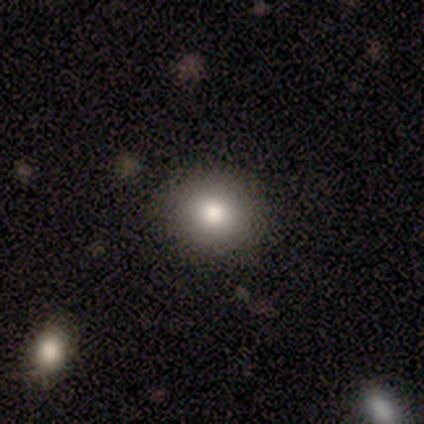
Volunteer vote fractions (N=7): smooth_or_featured: smooth (p=1.00)
how_rounded: round (p=0.57) [alt: in between p=0.43]
merging: none (p=0.86) [alt: minor disturbance p=0.14]